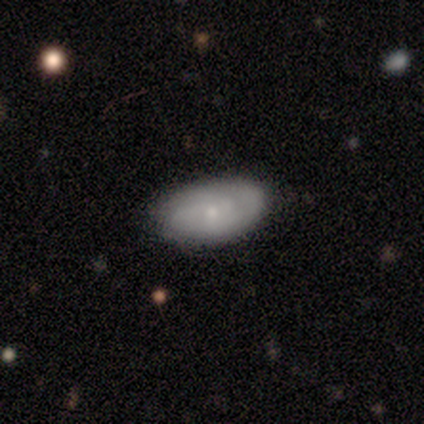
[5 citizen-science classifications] smooth 60%, featured or disk 20%, star or artifact 20%. Down the decision tree: how rounded — in between (100%); merging — none (50%, tied with minor disturbance).